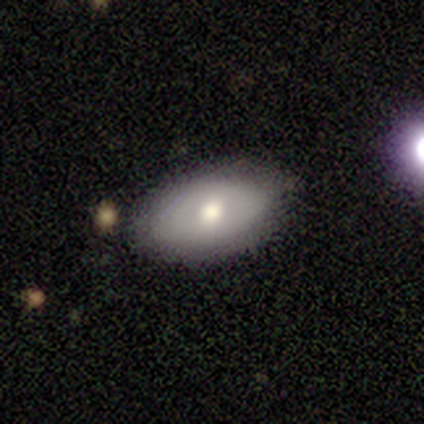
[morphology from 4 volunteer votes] Smooth or featured: featured or disk — 75% (star or artifact — 25%)
Edge-on disk: no — 100%
Bar: no — 67% (weak — 33%)
Spiral arms: no — 100%
Bulge size: moderate — 100%
Merging: none — 100%